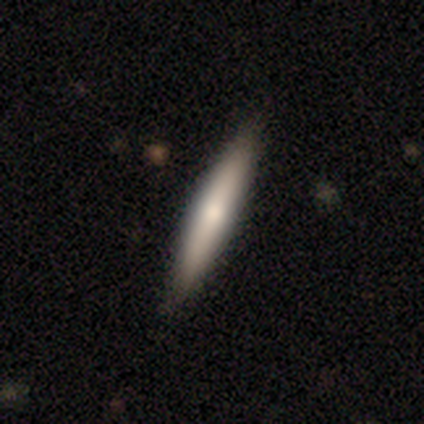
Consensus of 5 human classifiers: smooth_or_featured: featured or disk (p=0.60) [alt: smooth p=0.20]
disk_edge_on: yes (p=1.00)
edge_on_bulge: boxy (p=0.33) [tied with: none p=0.33, rounded p=0.33]
merging: none (p=0.50) [alt: minor disturbance p=0.25]